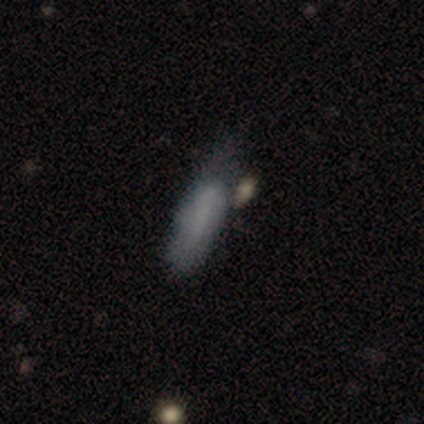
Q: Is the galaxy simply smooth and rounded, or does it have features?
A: smooth — 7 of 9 (78%).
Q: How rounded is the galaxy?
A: in between — 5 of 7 (71%).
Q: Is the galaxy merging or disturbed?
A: none — 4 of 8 (50%, tied with minor disturbance).